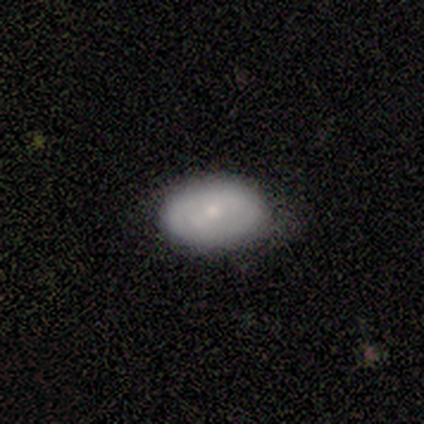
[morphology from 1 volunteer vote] Consensus on every question: smooth or featured — smooth (100%); how rounded — in between (100%); merging — none (100%).